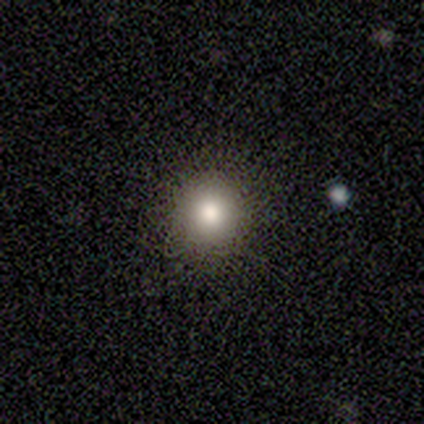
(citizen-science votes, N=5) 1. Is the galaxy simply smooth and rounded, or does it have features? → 100% smooth, 0% featured or disk, 0% star or artifact.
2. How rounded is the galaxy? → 100% round, 0% in between, 0% cigar-shaped.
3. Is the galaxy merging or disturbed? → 100% none, 0% minor disturbance, 0% major disturbance, 0% merger.